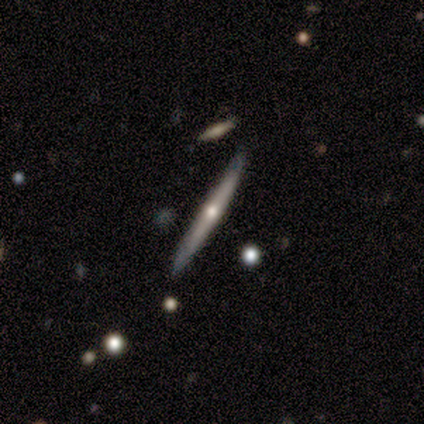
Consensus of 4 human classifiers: Morphology: type=smooth (50%, tied with featured or disk); roundness=cigar-shaped (100%); merging=none (100%).